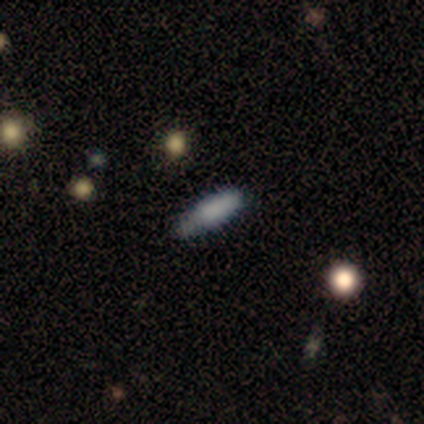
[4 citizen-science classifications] Morphology: type=smooth (50%, tied with featured or disk); roundness=in between (50%, tied with cigar-shaped); merging=none (75%).